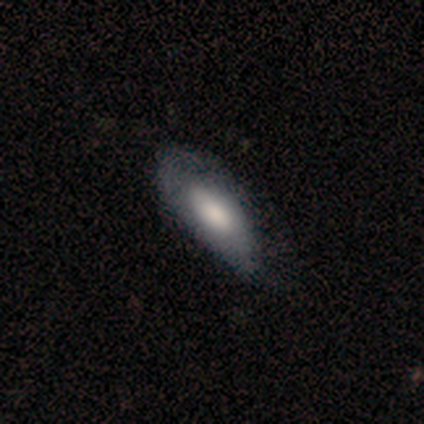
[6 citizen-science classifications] smooth-or-featured: smooth: 83% | featured or disk: 17% | star or artifact: 0%
  how-rounded: in between: 100% | round: 0% | cigar-shaped: 0%
  merging: minor disturbance: 67% | none: 33% | major disturbance: 0% | merger: 0%